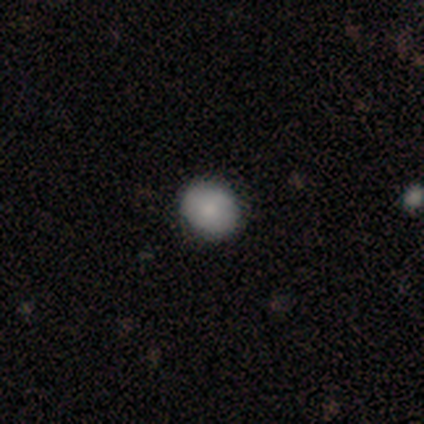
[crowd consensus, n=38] A smooth galaxy with no disk features (79%) that is round (73%). Merging: none (88%).